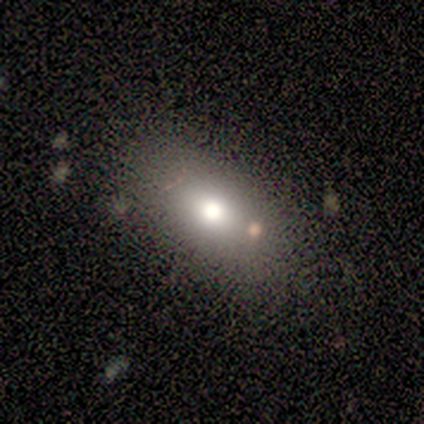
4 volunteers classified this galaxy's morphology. A smooth galaxy with no disk features (75%) that is in between round and cigar-shaped (100%).

Vote fractions:
- Smooth or featured? smooth: 75% / star or artifact: 25% / featured or disk: 0%
- How rounded? in between: 100% / round: 0% / cigar-shaped: 0%
- Merging? minor disturbance: 67% / none: 33% / major disturbance: 0% / merger: 0%